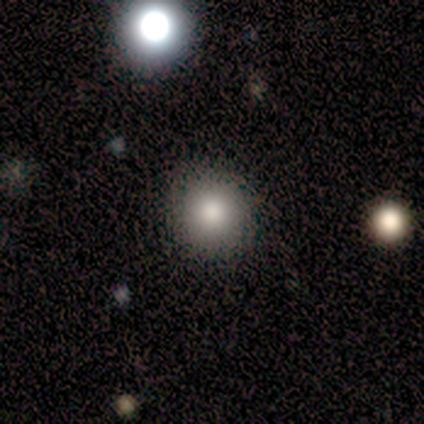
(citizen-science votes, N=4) Smooth or featured? smooth (100%)
How rounded? round (100%)
Merging? none (100%)